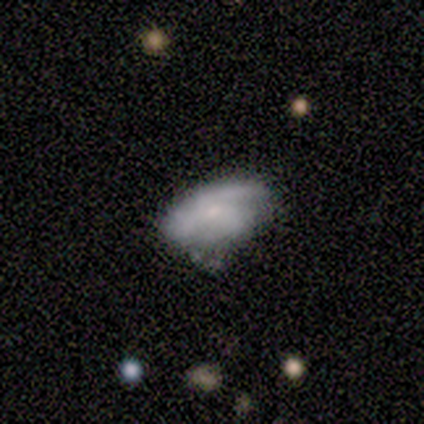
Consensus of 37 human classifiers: This is possibly a smooth galaxy (51%). How rounded: clearly in between (89%). Merging: likely none (65%).